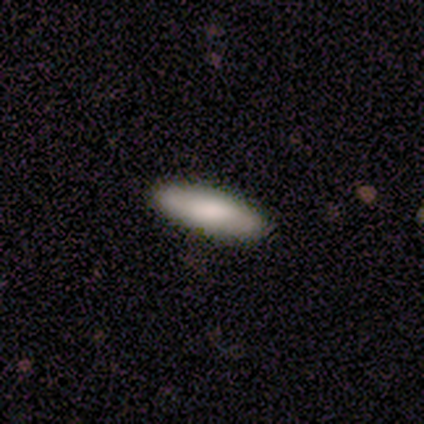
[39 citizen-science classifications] Q: Smooth or featured?
A: smooth (69%); runner-up: featured or disk (26%)
Q: How rounded?
A: cigar-shaped (70%); runner-up: in between (30%)
Q: Merging?
A: none (92%); runner-up: minor disturbance (8%)